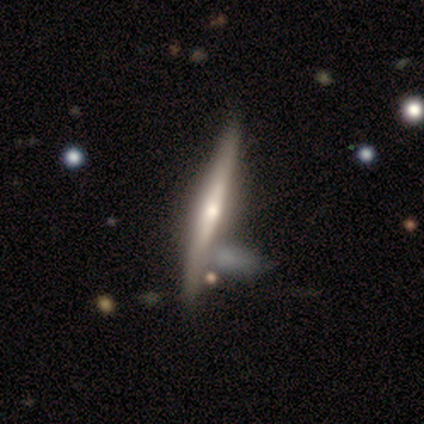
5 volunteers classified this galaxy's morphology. This is clearly a featured or disk galaxy (100%). It is clearly viewed edge-on (100%). Edge-on bulge: clearly rounded (80%). Merging: clearly none (80%).